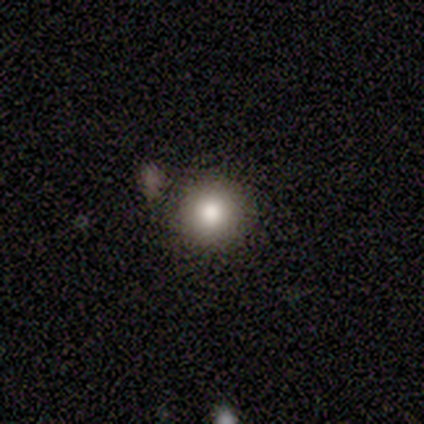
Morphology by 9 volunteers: Q: Smooth or featured?
A: smooth (89%); runner-up: star or artifact (11%)
Q: How rounded?
A: round (88%); runner-up: in between (12%)
Q: Merging?
A: none (88%); runner-up: minor disturbance (12%)